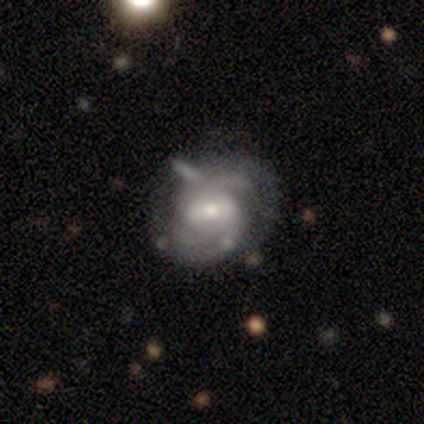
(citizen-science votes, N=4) A featured or disk galaxy (100%) with a weak bar (75%), 2 (100%) tight (100%) spiral arms (75%) and a moderate central bulge (50%). Merging: major disturbance (50%).